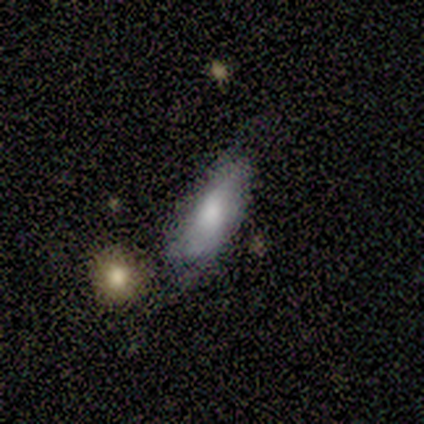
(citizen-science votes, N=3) Smooth or featured? 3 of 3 (100%) said smooth. How rounded? 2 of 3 (67%) said in between. Merging? 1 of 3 (33%, tied with minor disturbance and major disturbance) said none.